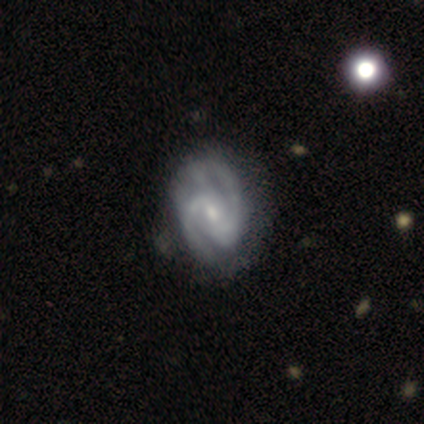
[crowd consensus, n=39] This is clearly a featured or disk galaxy (95%). It is clearly not viewed edge-on (100%). Bar: possibly weak (59%). Spiral arm pattern: clearly yes (97%). Spiral arm count: clearly 2 (89%). Spiral winding: possibly medium (50%). Central bulge: likely small (62%). Merging: marginally none (36%).